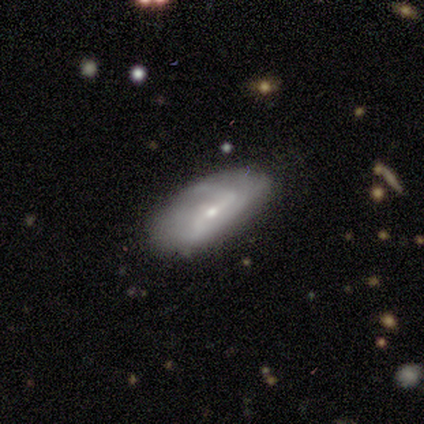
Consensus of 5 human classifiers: smooth_or_featured: smooth (p=0.60) [alt: featured or disk p=0.40]
how_rounded: in between (p=0.67) [alt: cigar-shaped p=0.33]
merging: none (p=0.60) [alt: minor disturbance p=0.20]